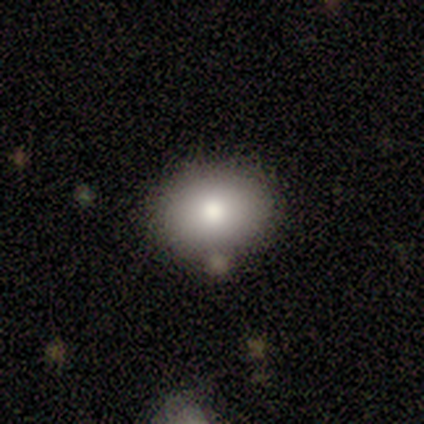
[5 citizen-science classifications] A smooth galaxy with no disk features (80%) that is round (50%, tied with in between). Merging: none (100%).